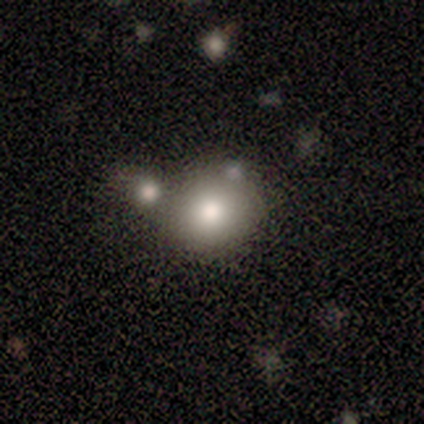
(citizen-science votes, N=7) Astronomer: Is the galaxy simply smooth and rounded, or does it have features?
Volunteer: smooth — 100%.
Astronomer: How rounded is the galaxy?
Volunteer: round — 86%.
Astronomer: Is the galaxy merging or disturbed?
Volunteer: none — 71%.